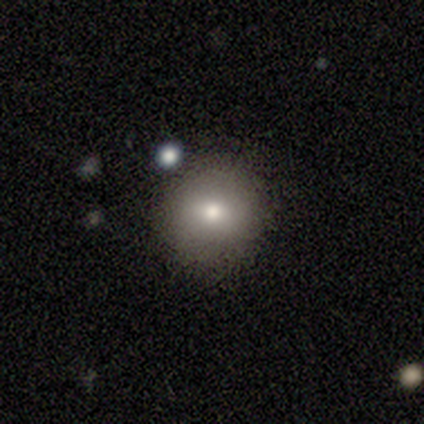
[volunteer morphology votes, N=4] Smooth or featured?
  - smooth: 50% * (tied)
  - featured or disk: 50% * (tied)
  - star or artifact: 0%
How rounded?
  - round: 100% *
  - in between: 0%
  - cigar-shaped: 0%
Merging?
  - none: 100% *
  - minor disturbance: 0%
  - major disturbance: 0%
  - merger: 0%